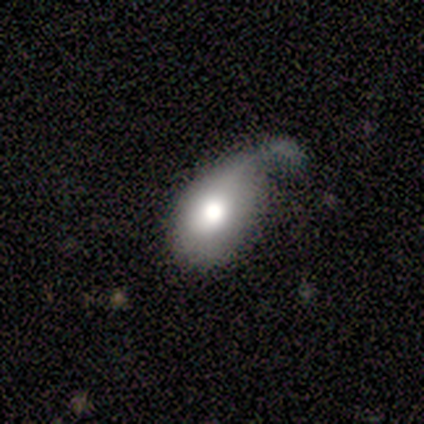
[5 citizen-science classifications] A smooth galaxy with no disk features (100%) that is in between round and cigar-shaped (80%).

Vote fractions:
- Smooth or featured? smooth: 100% / featured or disk: 0% / star or artifact: 0%
- How rounded? in between: 80% / round: 20% / cigar-shaped: 0%
- Merging? minor disturbance: 60% / major disturbance: 20% / merger: 20% / none: 0%